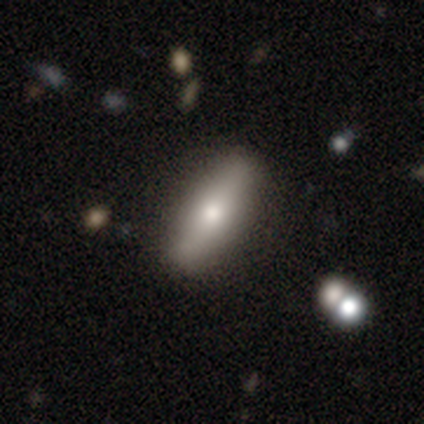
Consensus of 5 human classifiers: smooth_or_featured: featured or disk (p=0.60) [alt: smooth p=0.20]
disk_edge_on: yes (p=0.67) [alt: no p=0.33]
edge_on_bulge: rounded (p=1.00)
merging: none (p=1.00)